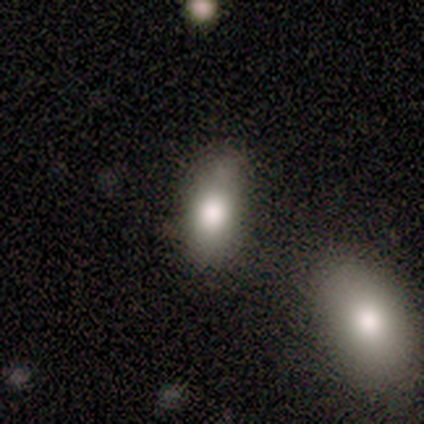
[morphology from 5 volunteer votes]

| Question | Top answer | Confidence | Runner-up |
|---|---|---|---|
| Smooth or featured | smooth | 80% | featured or disk (20%) |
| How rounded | in between | 100% | — |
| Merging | none | 80% | minor disturbance (20%) |